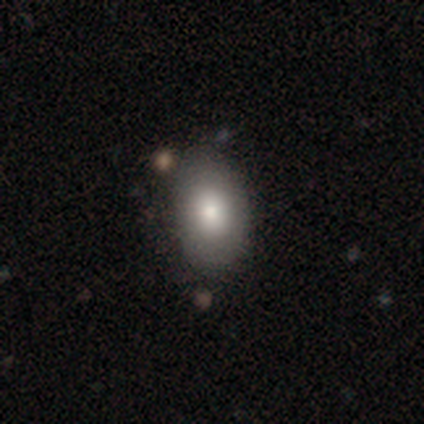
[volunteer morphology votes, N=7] A smooth galaxy with no disk features (86%) that is in between round and cigar-shaped (100%). Merging: none (71%).